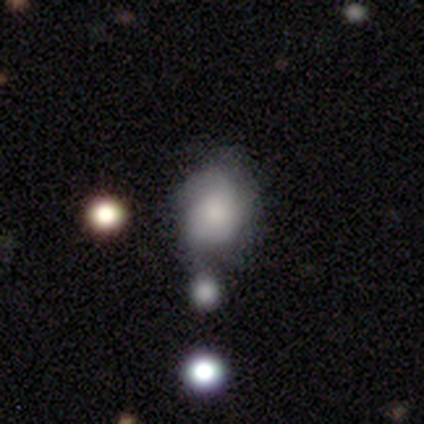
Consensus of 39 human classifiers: This appears to be a smooth galaxy with no disk features (59%) that is in between round and cigar-shaped (65%). Merging: minor disturbance (37%).